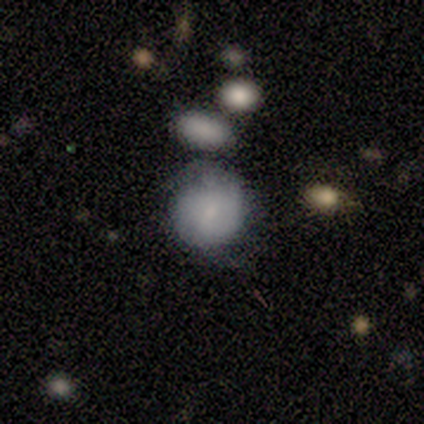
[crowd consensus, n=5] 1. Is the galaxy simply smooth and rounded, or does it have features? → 80% smooth, 20% featured or disk, 0% star or artifact.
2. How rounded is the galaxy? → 100% round, 0% in between, 0% cigar-shaped.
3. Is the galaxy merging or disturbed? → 80% none, 20% minor disturbance, 0% major disturbance, 0% merger.